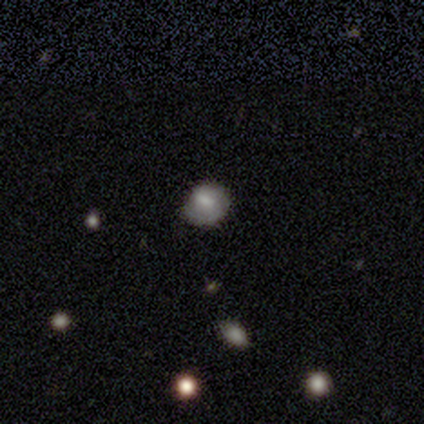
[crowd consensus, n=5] Smooth or featured? 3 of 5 (60%) said smooth. How rounded? 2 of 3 (67%) said round. Merging? 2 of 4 (50%) said none.